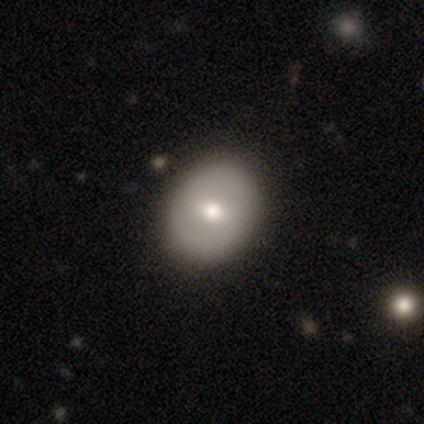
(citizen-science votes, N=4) Q: Smooth or featured?
A: featured or disk (75%); runner-up: smooth (25%)
Q: Edge-on disk?
A: no (100%)
Q: Bar?
A: weak (67%); runner-up: strong (33%)
Q: Spiral arms?
A: yes (67%); runner-up: no (33%)
Q: Spiral winding?
A: medium (100%)
Q: Spiral arm count?
A: 2 (50%); tied with: can't tell (50%)
Q: Bulge size?
A: moderate (67%); runner-up: large (33%)
Q: Merging?
A: none (100%)